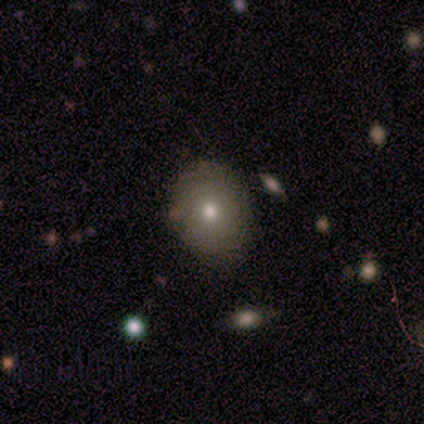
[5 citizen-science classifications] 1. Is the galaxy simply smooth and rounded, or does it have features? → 60% smooth, 20% featured or disk, 20% star or artifact.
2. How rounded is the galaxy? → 67% in between, 33% round, 0% cigar-shaped.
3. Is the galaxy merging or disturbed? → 100% none, 0% minor disturbance, 0% major disturbance, 0% merger.